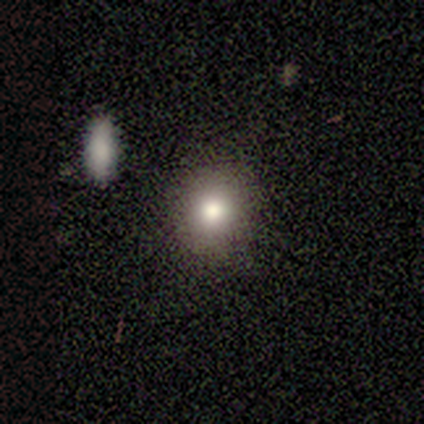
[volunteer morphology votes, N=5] Smooth or featured?
  - smooth: 80% *
  - featured or disk: 20%
  - star or artifact: 0%
How rounded?
  - round: 100% *
  - in between: 0%
  - cigar-shaped: 0%
Merging?
  - none: 80% *
  - merger: 20%
  - minor disturbance: 0%
  - major disturbance: 0%